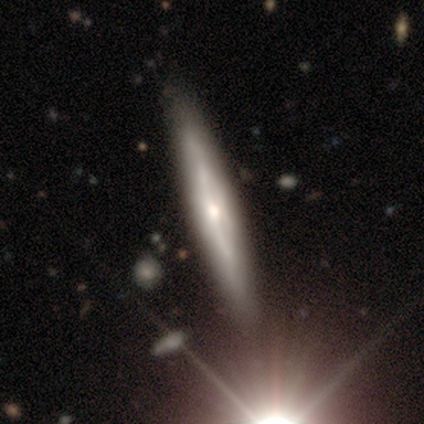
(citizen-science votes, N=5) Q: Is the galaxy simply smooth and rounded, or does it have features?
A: featured or disk — 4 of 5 (80%).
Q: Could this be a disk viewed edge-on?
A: yes — 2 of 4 (50%, tied with no).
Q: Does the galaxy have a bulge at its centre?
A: boxy — 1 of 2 (50%, tied with rounded).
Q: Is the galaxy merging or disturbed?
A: none — 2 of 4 (50%).